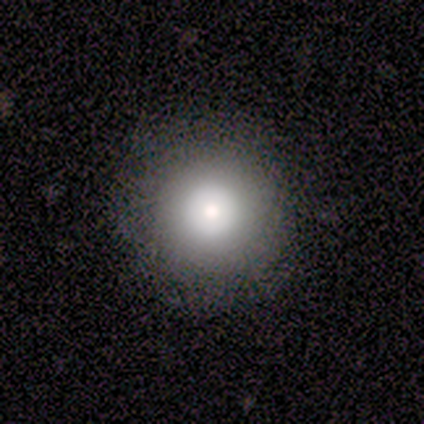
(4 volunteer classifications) This appears to be a smooth galaxy with no disk features (100%) that is round (100%). Merging: none (100%).